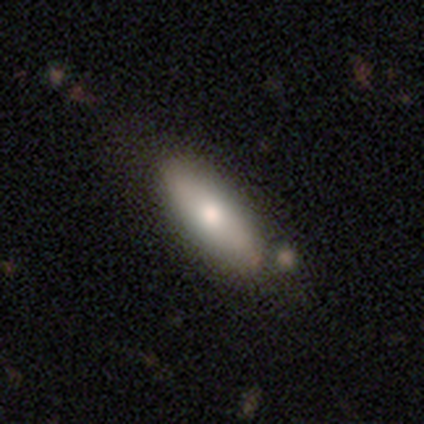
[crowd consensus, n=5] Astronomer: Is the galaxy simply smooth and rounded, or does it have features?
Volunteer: smooth — 80%.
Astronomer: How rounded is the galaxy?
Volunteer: in between — 75%.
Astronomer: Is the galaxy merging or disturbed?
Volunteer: none — 100%.